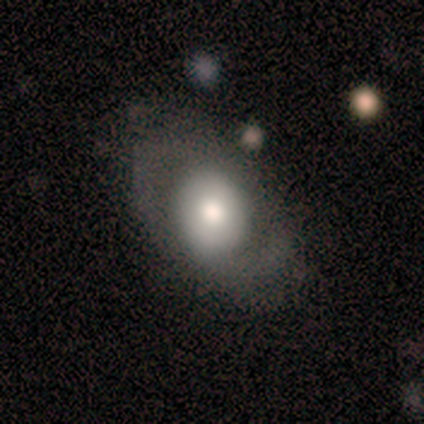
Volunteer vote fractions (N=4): Smooth or featured? smooth (50%, tied with featured or disk)
How rounded? in between (100%)
Merging? none (50%)